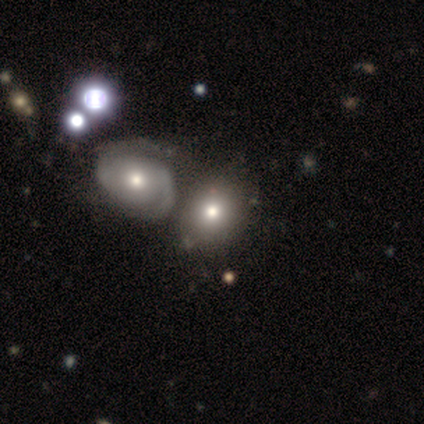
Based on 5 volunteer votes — A smooth galaxy with no disk features (60%) that is in between round and cigar-shaped (100%).

Vote fractions:
- Smooth or featured? smooth: 60% / featured or disk: 40% / star or artifact: 0%
- How rounded? in between: 100% / round: 0% / cigar-shaped: 0%
- Merging? none: 60% / minor disturbance: 20% / merger: 20% / major disturbance: 0%